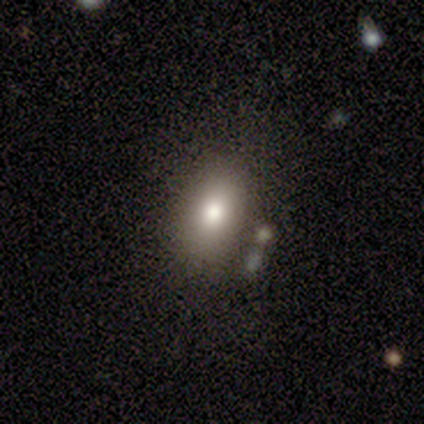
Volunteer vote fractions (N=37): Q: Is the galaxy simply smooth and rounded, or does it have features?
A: smooth — 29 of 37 (78%).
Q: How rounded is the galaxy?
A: in between — 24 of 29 (83%).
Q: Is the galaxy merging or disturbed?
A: none — 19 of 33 (58%).